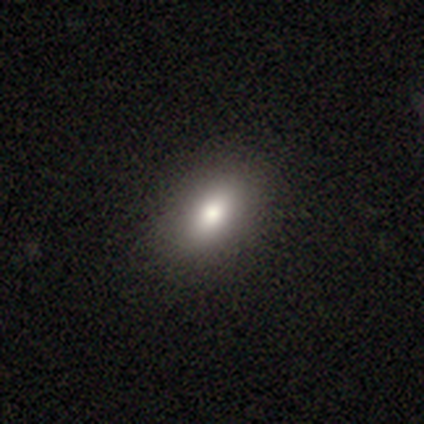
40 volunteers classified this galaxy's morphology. smooth_or_featured: smooth (p=0.78) [alt: featured or disk p=0.15]
how_rounded: in between (p=0.87) [alt: round p=0.10]
merging: none (p=0.68) [alt: minor disturbance p=0.05]